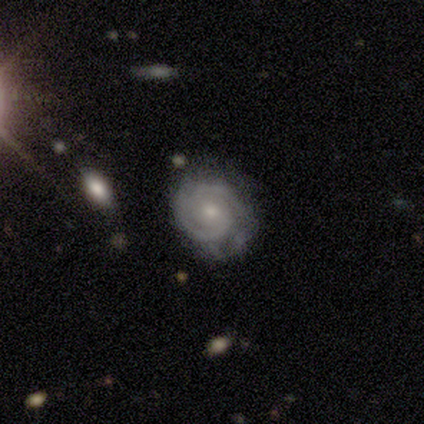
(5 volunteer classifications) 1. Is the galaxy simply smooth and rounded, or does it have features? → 100% featured or disk, 0% smooth, 0% star or artifact.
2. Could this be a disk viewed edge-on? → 80% no, 20% yes.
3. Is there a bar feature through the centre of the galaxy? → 50% weak, 25% strong, 25% no.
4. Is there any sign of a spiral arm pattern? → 100% yes, 0% no.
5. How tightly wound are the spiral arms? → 75% tight, 25% medium, 0% loose.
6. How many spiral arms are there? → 75% 2, 25% can't tell, 0% 1, 0% 3, 0% 4, 0% more than 4.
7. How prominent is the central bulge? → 75% small, 25% moderate, 0% dominant, 0% large, 0% none.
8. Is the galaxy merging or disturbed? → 80% none, 20% minor disturbance, 0% major disturbance, 0% merger.